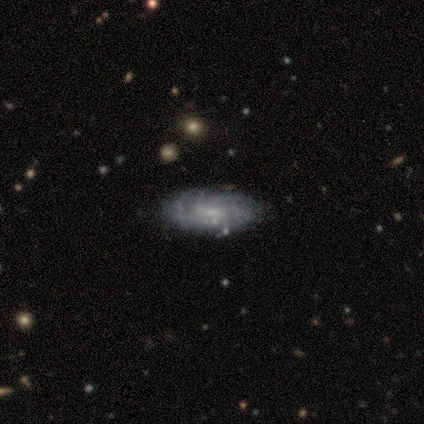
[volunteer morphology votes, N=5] smooth_or_featured: smooth (p=0.60) [alt: featured or disk p=0.40]
how_rounded: in between (p=0.67) [alt: round p=0.33]
merging: none (p=0.60) [alt: minor disturbance p=0.40]